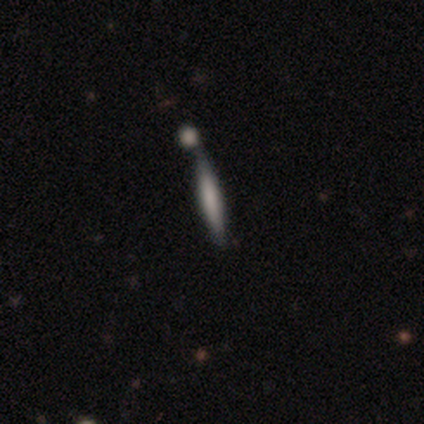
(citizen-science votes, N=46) smooth 61%, featured or disk 28%, star or artifact 11%. Down the decision tree: how rounded — cigar-shaped (89%); merging — none (41%).